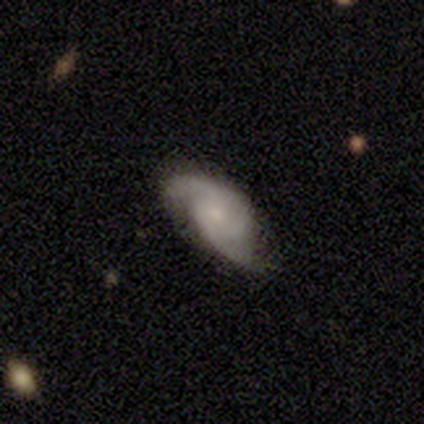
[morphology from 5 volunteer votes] type=featured or disk (100%); edge-on=no (80%); bar=no (75%); spiral arms=yes (100%); winding=loose (50%); arm count=2 (100%); bulge=small (50%); merging=minor disturbance (80%).